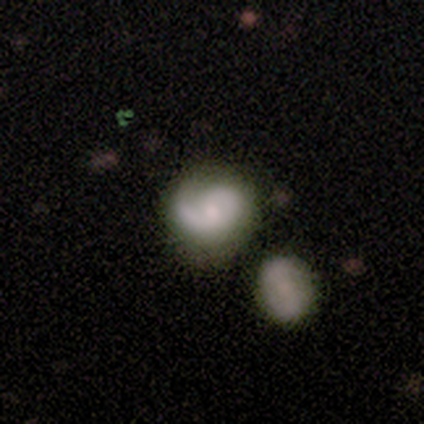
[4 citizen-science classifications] A featured or disk galaxy (100%) with no bar (75%), 1 (50%, tied with 2) loose (50%) spiral arms (100%) and a moderate central bulge (75%). Merging: none (25%, tied with minor disturbance, major disturbance and merger).